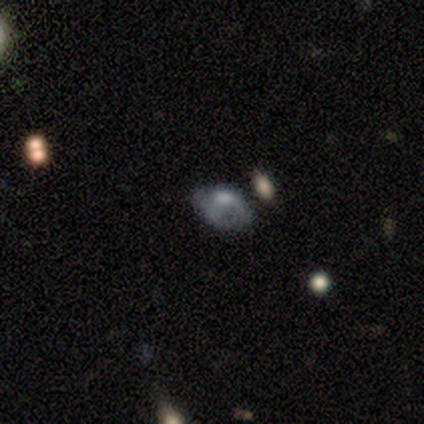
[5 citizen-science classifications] Q: Smooth or featured?
A: smooth (60%); runner-up: featured or disk (40%)
Q: How rounded?
A: in between (67%); runner-up: round (33%)
Q: Merging?
A: minor disturbance (40%); tied with: major disturbance (40%)